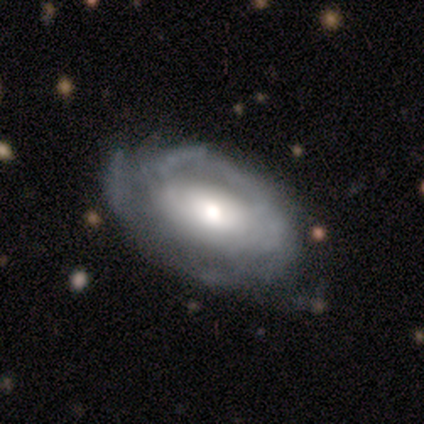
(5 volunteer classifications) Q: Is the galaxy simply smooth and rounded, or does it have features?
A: featured or disk — 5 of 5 (100%).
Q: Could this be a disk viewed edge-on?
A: no — 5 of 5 (100%).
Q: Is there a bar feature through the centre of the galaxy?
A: no — 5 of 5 (100%).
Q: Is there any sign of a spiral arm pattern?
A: no — 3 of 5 (60%).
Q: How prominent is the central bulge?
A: moderate — 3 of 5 (60%).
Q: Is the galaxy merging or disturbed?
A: none — 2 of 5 (40%, tied with minor disturbance).